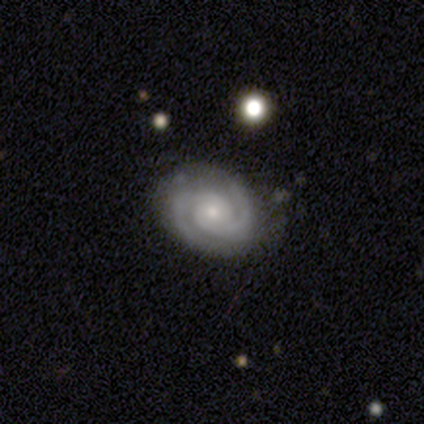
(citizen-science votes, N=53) Overall: featured or disk (87%). Edge-on disk: no (93%). Bar: no (74%). Spiral arms: yes (100%). Spiral arm count: 2 (98%). Spiral winding: tight (65%; medium 30%). Bulge size: small (49%; moderate 42%). Merging: none (80%).